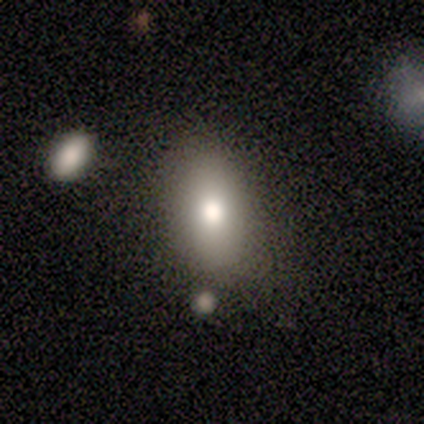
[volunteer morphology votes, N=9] A smooth galaxy with no disk features (89%) that is in between round and cigar-shaped (75%).

Vote fractions:
- Smooth or featured? smooth: 89% / featured or disk: 11% / star or artifact: 0%
- How rounded? in between: 75% / round: 25% / cigar-shaped: 0%
- Merging? none: 56% / minor disturbance: 33% / major disturbance: 11% / merger: 0%